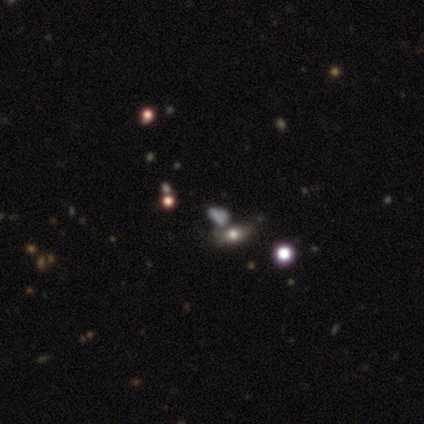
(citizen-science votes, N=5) Smooth or featured? star or artifact (60%)